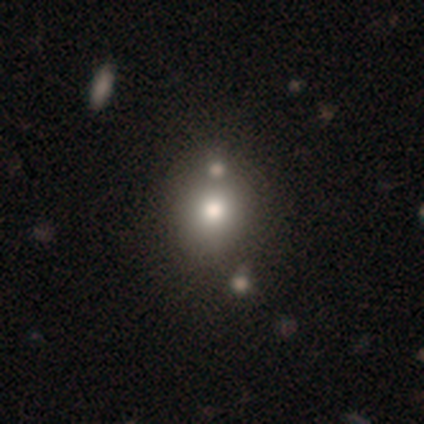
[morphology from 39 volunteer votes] Overall: smooth (77%). How rounded: round (80%). Merging: none (49%; merger 29%).